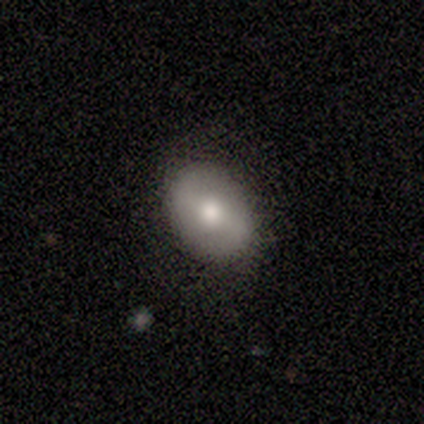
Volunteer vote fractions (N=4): smooth 50% (tied), featured or disk 50% (tied), star or artifact 0%. Down the decision tree: how rounded — in between (100%); merging — none (100%).